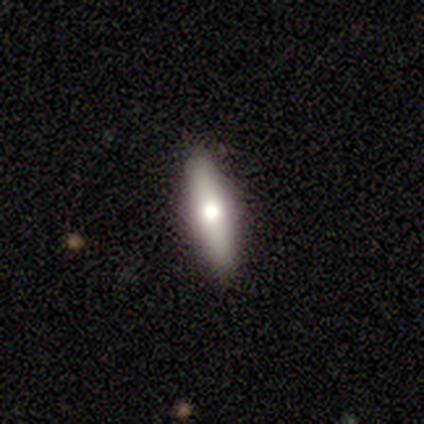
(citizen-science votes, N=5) smooth 60%, featured or disk 40%, star or artifact 0%. Down the decision tree: how rounded — cigar-shaped (67%); merging — none (100%).